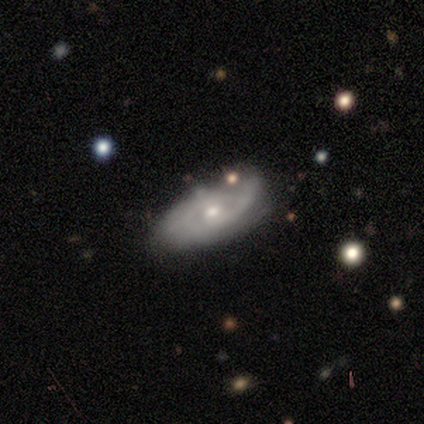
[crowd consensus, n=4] Smooth or featured? featured or disk (75%)
Edge-on disk? no (100%)
Bar? weak (67%)
Spiral arms? yes (100%)
Spiral winding? medium (67%)
Spiral arm count? 2 (100%)
Bulge size? moderate (67%)
Merging? none (50%, tied with minor disturbance)